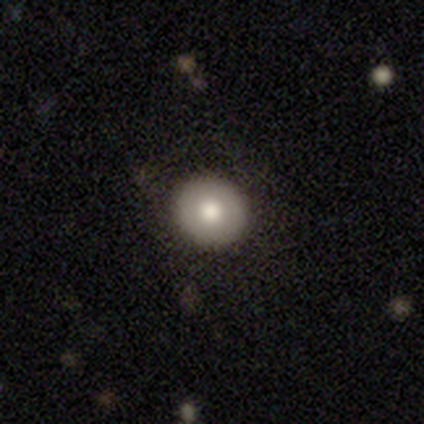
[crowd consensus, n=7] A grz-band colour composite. It shows a featured or disk galaxy (43%) with no bar (100%), no spiral arms (100%) and a moderate central bulge (67%). Merging: none (100%).